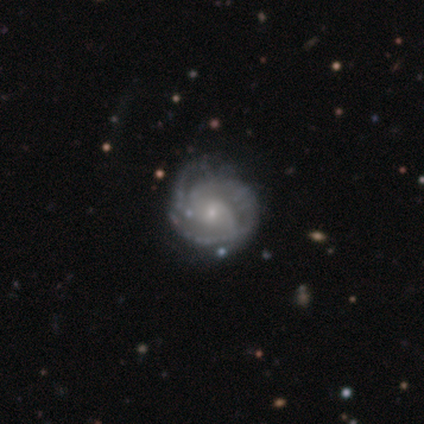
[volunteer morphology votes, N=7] Smooth or featured: featured or disk — 86% (smooth — 14%)
Edge-on disk: no — 100%
Bar: no — 83% (weak — 17%)
Spiral arms: yes — 100%
Spiral winding: tight — 83% (medium — 17%)
Spiral arm count: 3 — 50% (can't tell — 33%)
Bulge size: small — 83% (moderate — 17%)
Merging: none — 71% (minor disturbance — 29%)